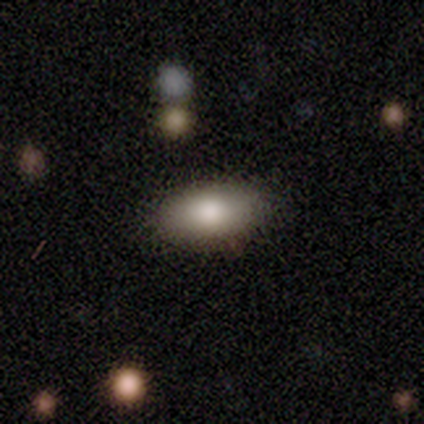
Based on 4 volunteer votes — Overall: smooth (100%). How rounded: in between (100%). Merging: none (100%).